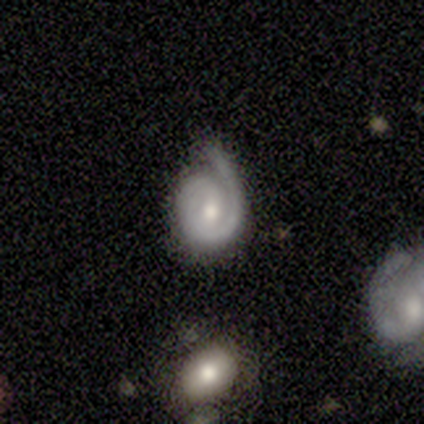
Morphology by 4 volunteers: A featured or disk galaxy (75%) with no bar (67%), 1 (100%) tight (67%) spiral arms (100%) and a moderate central bulge (100%). Merging: none (100%).